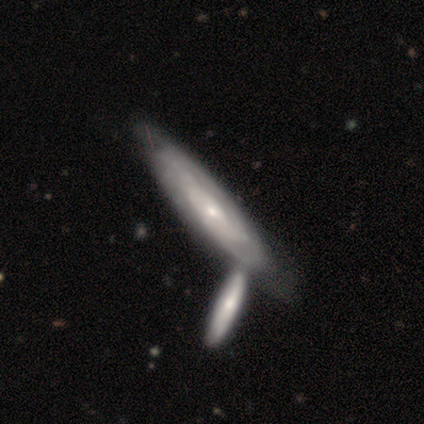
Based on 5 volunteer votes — Volunteers were most divided on "merging" (2-way tie): none: 40%, merger: 40%, minor disturbance: 20%, major disturbance: 0%. More confident: smooth or featured — featured or disk (100%); edge-on disk — no (100%); spiral arms — yes (100%); bulge size — small (100%); bar — no (60%); spiral winding — medium (60%); spiral arm count — can't tell (60%).